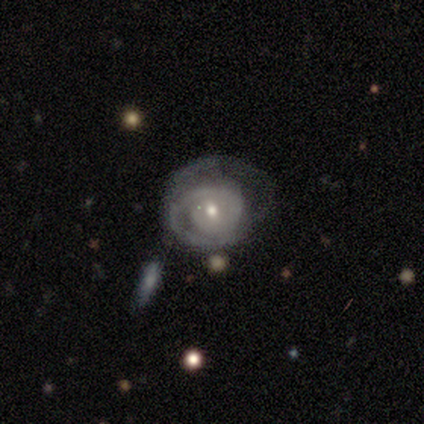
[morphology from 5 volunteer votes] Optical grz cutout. It shows a featured or disk galaxy (100%) with no bar (80%), tight (50%, tied with medium) spiral arms (80%) and a moderate central bulge (80%). Merging: minor disturbance (40%).